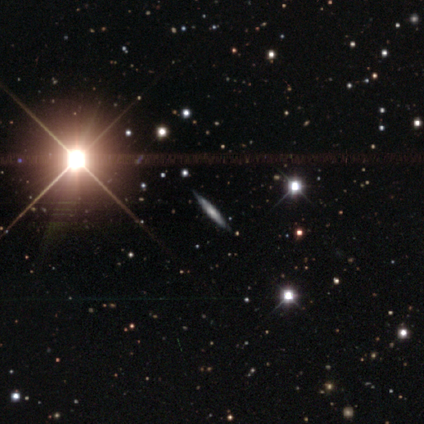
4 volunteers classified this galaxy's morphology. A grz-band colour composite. It shows a star or artifact, not a galaxy (50%).